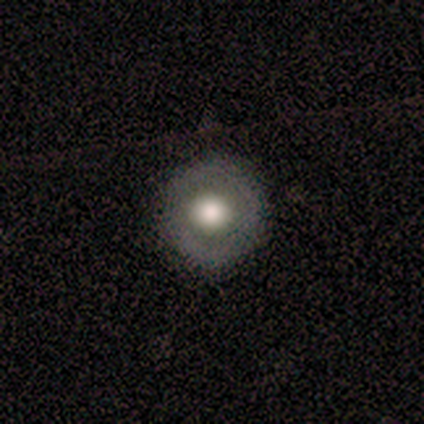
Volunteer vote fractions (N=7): Smooth or featured?
  - star or artifact: 43% *
  - smooth: 29%
  - featured or disk: 29%